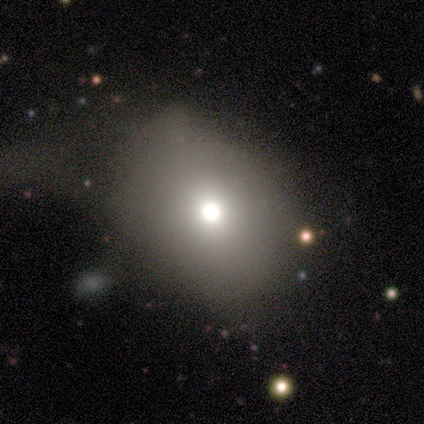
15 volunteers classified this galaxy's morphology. Smooth or featured: smooth — 40% (tied with featured or disk — 40%)
How rounded: round — 83% (in between — 17%)
Merging: none — 67% (major disturbance — 25%)